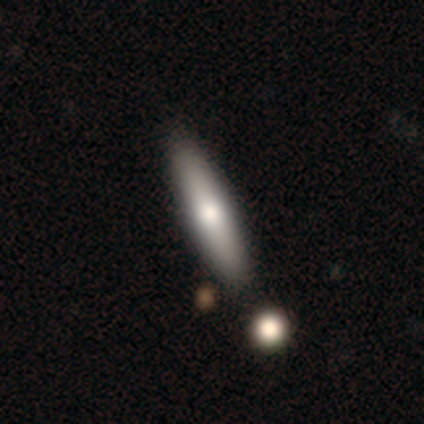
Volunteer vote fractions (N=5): This is likely a featured or disk galaxy (60%). It is clearly viewed edge-on (100%). Edge-on bulge: clearly rounded (100%). Merging: clearly none (80%).